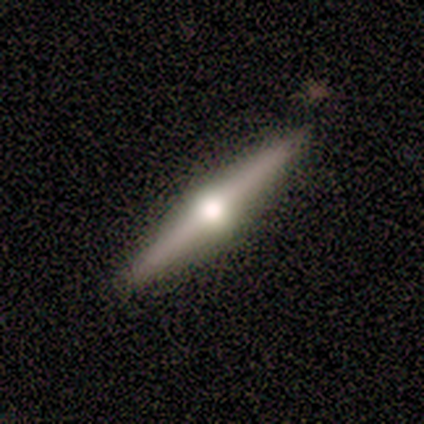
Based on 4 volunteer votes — Volunteers were most divided on "smooth or featured": featured or disk: 75%, smooth: 25%, star or artifact: 0%. More confident: edge-on disk — yes (100%); edge-on bulge — rounded (100%); merging — none (100%).